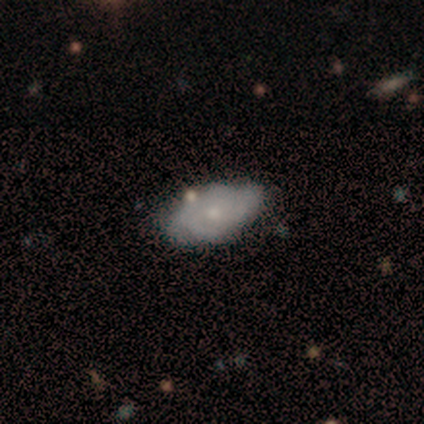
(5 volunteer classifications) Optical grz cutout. It shows a featured or disk galaxy (60%) with no bar (100%), no spiral arms (67%) and a small central bulge (67%). Merging: none (100%).